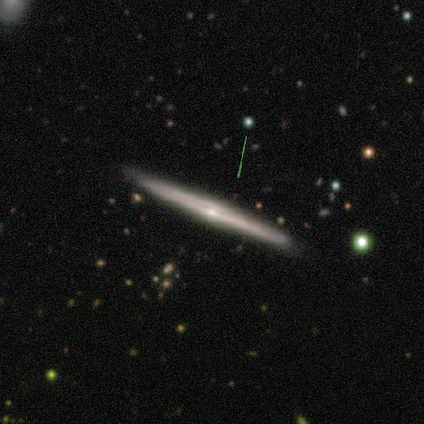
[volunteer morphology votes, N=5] smooth_or_featured: featured or disk (p=0.60) [alt: smooth p=0.40]
disk_edge_on: yes (p=1.00)
edge_on_bulge: rounded (p=0.67) [alt: none p=0.33]
merging: none (p=1.00)